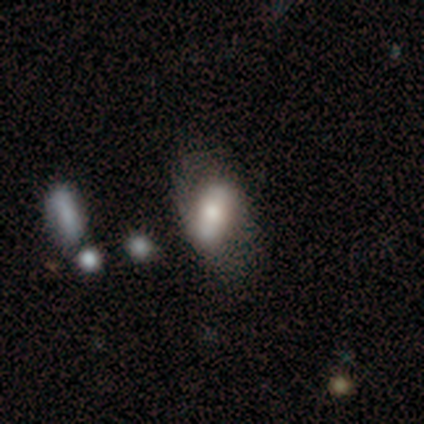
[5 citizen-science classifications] Morphology: type=featured or disk (100%); edge-on=no (80%); bar=weak (75%); spiral arms=yes (75%); winding=medium (67%); arm count=2 (100%); bulge=moderate (75%); merging=none (60%).